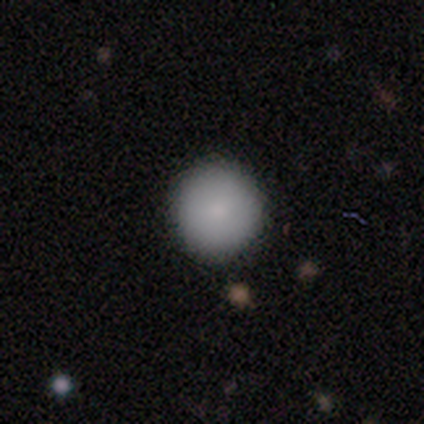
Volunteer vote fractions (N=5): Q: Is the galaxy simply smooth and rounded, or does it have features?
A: smooth — 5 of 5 (100%).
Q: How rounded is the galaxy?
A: round — 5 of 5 (100%).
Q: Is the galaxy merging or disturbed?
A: none — 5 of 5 (100%).